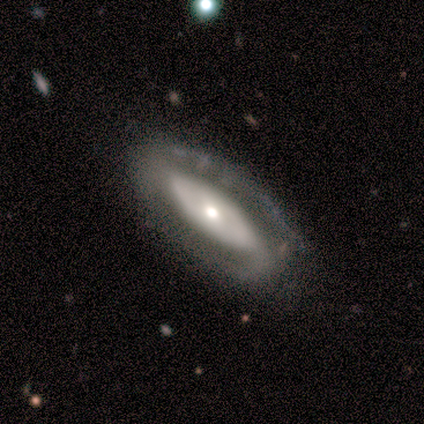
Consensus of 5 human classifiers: smooth_or_featured: featured or disk (p=0.80) [alt: smooth p=0.20]
disk_edge_on: yes (p=0.50) [tied with: no p=0.50]
edge_on_bulge: rounded (p=1.00)
merging: none (p=1.00)